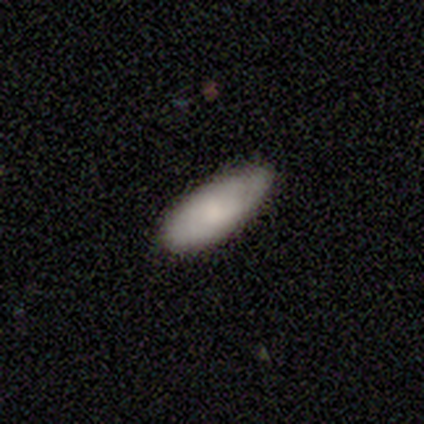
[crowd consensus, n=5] Morphology: type=smooth (100%); roundness=in between (80%); merging=none (40%, tied with minor disturbance).